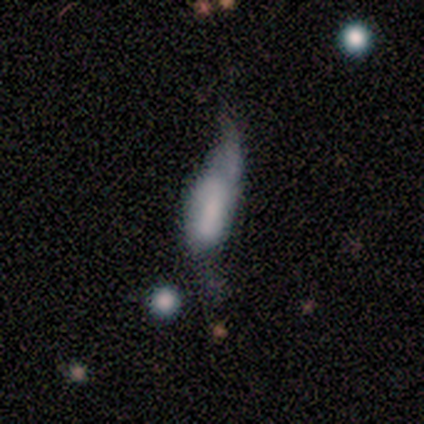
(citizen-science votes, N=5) Overall: smooth (80%). How rounded: in between (50%, tied with cigar-shaped). Merging: major disturbance (80%).